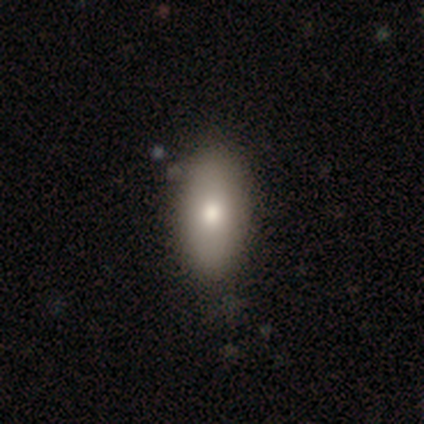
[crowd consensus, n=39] Smooth or featured? smooth (85%)
How rounded? in between (88%)
Merging? none (82%)